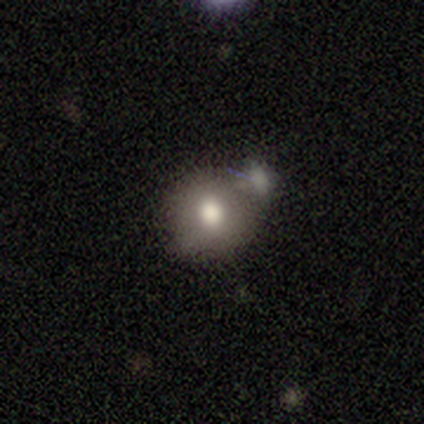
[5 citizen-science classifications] Morphology: type=smooth (80%); roundness=round (100%); merging=minor disturbance (40%, tied with merger).